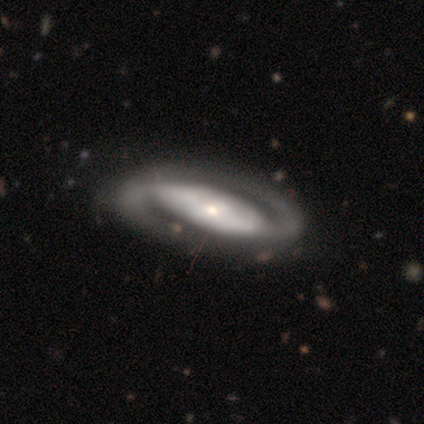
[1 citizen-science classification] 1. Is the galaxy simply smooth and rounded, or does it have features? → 100% smooth, 0% featured or disk, 0% star or artifact.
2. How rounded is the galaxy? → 100% in between, 0% round, 0% cigar-shaped.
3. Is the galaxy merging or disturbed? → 100% minor disturbance, 0% none, 0% major disturbance, 0% merger.